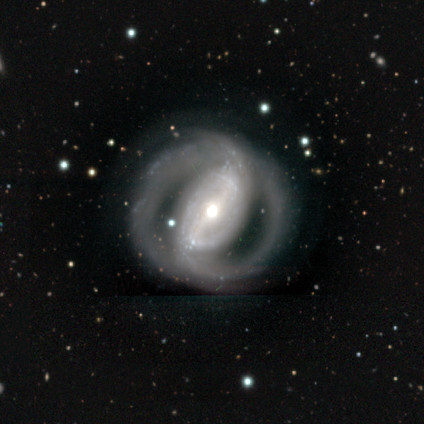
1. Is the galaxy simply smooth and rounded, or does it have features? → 100% featured or disk, 0% smooth, 0% star or artifact.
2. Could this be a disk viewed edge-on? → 100% no, 0% yes.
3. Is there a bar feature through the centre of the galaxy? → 60% strong, 40% weak, 0% no.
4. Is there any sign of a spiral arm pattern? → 80% yes, 20% no.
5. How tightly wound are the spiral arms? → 50% loose, 25% tight, 25% medium.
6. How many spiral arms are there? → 100% 2, 0% 1, 0% 3, 0% 4, 0% more than 4, 0% can't tell.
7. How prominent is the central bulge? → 80% moderate, 20% small, 0% dominant, 0% large, 0% none.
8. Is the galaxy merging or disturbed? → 80% none, 20% minor disturbance, 0% major disturbance, 0% merger.